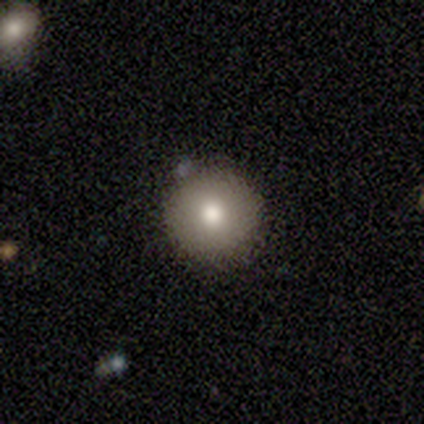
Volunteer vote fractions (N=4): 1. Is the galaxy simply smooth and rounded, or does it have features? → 75% smooth, 25% featured or disk, 0% star or artifact.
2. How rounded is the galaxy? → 100% round, 0% in between, 0% cigar-shaped.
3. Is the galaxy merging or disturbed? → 100% none, 0% minor disturbance, 0% major disturbance, 0% merger.